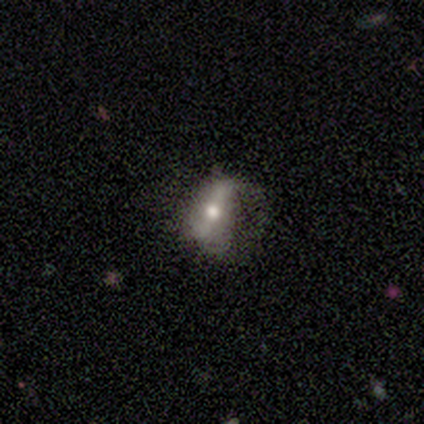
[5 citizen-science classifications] A featured or disk galaxy (60%) with no bar (100%), no spiral arms (100%) and a moderate central bulge (100%).

Vote fractions:
- Smooth or featured? featured or disk: 60% / smooth: 20% / star or artifact: 20%
- Edge-on disk? no: 67% / yes: 33%
- Bar? no: 100% / strong: 0% / weak: 0%
- Spiral arms? no: 100% / yes: 0%
- Bulge size? moderate: 100% / dominant: 0% / large: 0% / small: 0% / none: 0%
- Merging? none: 75% / minor disturbance: 25% / major disturbance: 0% / merger: 0%